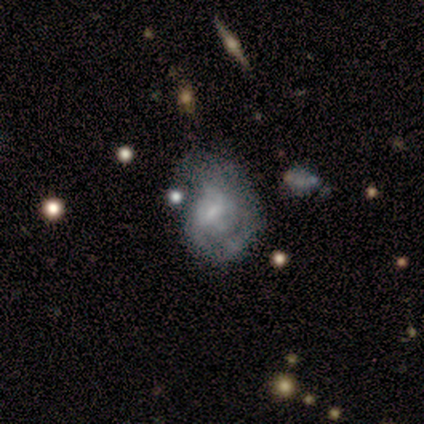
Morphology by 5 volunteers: Smooth or featured? 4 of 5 (80%) said featured or disk. Edge-on disk? 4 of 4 (100%) said no. Bar? 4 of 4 (100%) said weak. Spiral arms? 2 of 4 (50%, tied with no) said yes. Spiral winding? 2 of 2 (100%) said medium. Spiral arm count? 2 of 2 (100%) said can't tell. Bulge size? 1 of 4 (25%, tied with moderate, small and none) said dominant. Merging? 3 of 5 (60%) said major disturbance.